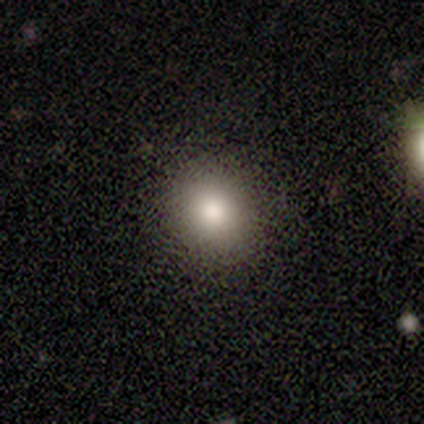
Morphology: type=smooth (80%); roundness=round (75%); merging=none (75%).